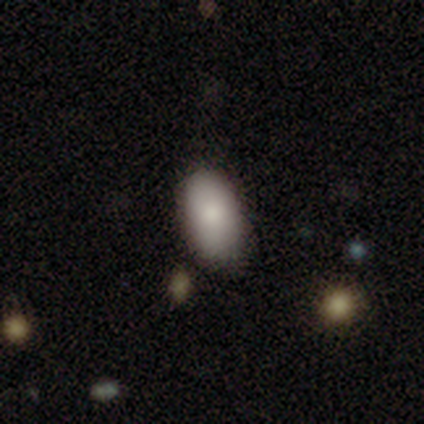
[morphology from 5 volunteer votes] smooth_or_featured: smooth (p=1.00)
how_rounded: in between (p=1.00)
merging: minor disturbance (p=0.80) [alt: none p=0.20]